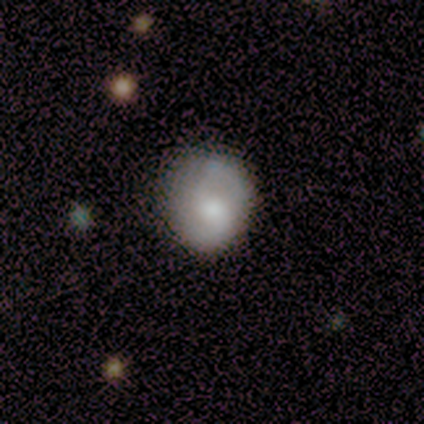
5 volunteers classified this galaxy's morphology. Overall: smooth (80%). How rounded: round (75%). Merging: none (100%).